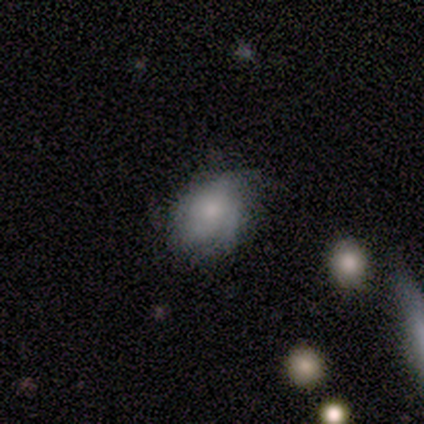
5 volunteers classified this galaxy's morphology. Smooth or featured? smooth (60%)
How rounded? round (67%)
Merging? minor disturbance (50%)